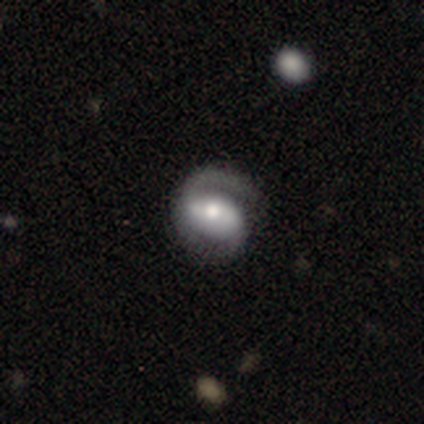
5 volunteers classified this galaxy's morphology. featured or disk 100%, smooth 0%, star or artifact 0%. Down the decision tree: edge-on disk — no (100%); bar — strong (60%); spiral arms — yes (100%); spiral arm count — 2 (80%); spiral winding — medium (80%); bulge size — moderate (100%); merging — none (100%).